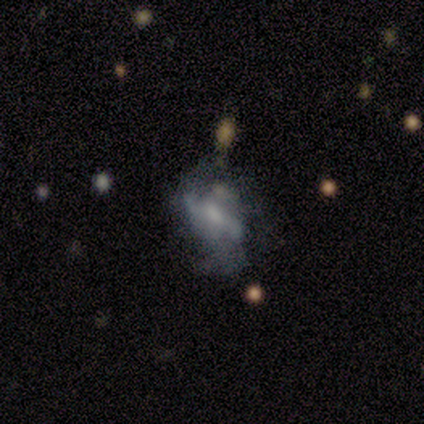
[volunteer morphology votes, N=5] Volunteers were most divided on "merging" (2-way tie): none: 40%, minor disturbance: 40%, major disturbance: 20%, merger: 0%. More confident: smooth or featured — featured or disk (100%); edge-on disk — no (100%); bar — weak (80%); spiral arms — yes (80%); spiral arm count — 2 (75%); bulge size — moderate (60%); spiral winding — loose (50%).